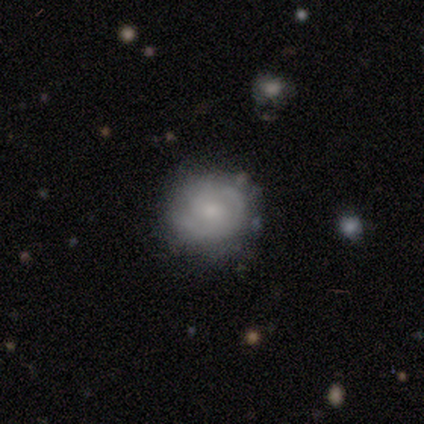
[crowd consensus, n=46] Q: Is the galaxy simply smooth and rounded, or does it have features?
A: featured or disk — 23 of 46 (50%).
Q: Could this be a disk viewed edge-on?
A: no — 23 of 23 (100%).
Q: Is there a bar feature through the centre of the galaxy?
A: weak — 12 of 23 (52%).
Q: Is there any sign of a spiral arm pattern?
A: yes — 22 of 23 (96%).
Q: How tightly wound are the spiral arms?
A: tight — 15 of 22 (68%).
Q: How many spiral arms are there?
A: can't tell — 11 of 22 (50%).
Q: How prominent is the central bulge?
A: small — 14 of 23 (61%).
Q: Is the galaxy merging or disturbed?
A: none — 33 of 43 (77%).